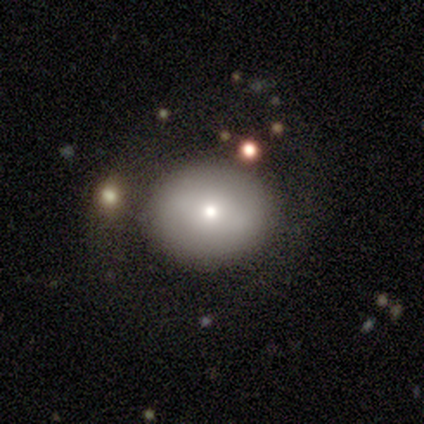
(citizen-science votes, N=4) A featured or disk galaxy (75%) with a strong bar (50%, tied with weak), no spiral arms (100%) and a moderate central bulge (50%, tied with small).

Vote fractions:
- Smooth or featured? featured or disk: 75% / star or artifact: 25% / smooth: 0%
- Edge-on disk? no: 67% / yes: 33%
- Bar? strong: 50% (tied) / weak: 50% (tied) / no: 0%
- Spiral arms? no: 100% / yes: 0%
- Bulge size? moderate: 50% (tied) / small: 50% (tied) / dominant: 0% / large: 0% / none: 0%
- Merging? none: 100% / minor disturbance: 0% / major disturbance: 0% / merger: 0%